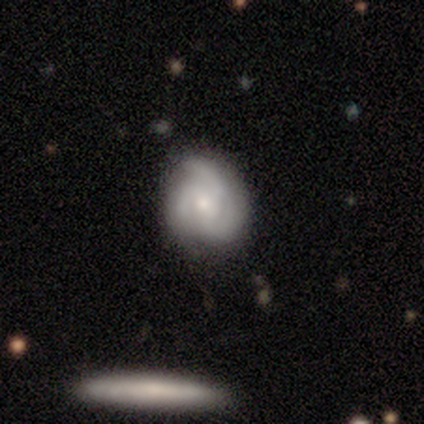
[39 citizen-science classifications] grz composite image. It shows a featured or disk galaxy (92%) with no bar (97%), 3 (94%) medium (53%) spiral arms (100%) and a moderate central bulge (50%). Merging: none (79%).